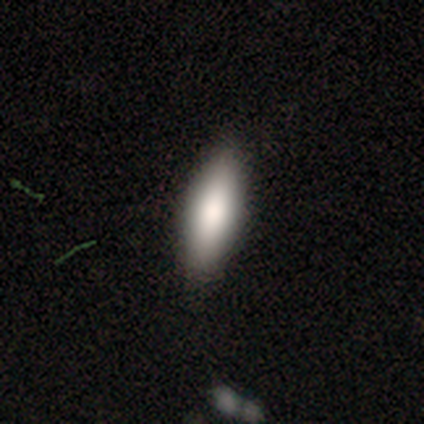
This is clearly a smooth galaxy (100%). How rounded: clearly in between (80%). Merging: clearly none (100%).